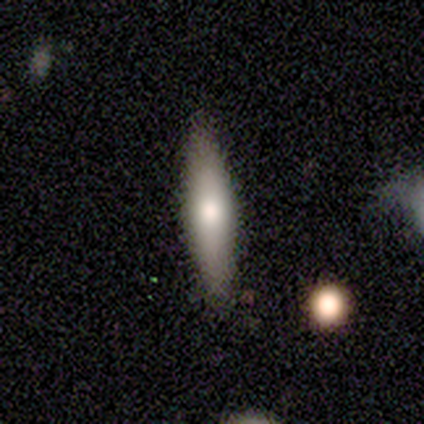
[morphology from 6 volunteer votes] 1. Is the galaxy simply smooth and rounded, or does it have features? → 67% smooth, 33% featured or disk, 0% star or artifact.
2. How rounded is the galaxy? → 100% cigar-shaped, 0% round, 0% in between.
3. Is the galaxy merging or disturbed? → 100% none, 0% minor disturbance, 0% major disturbance, 0% merger.